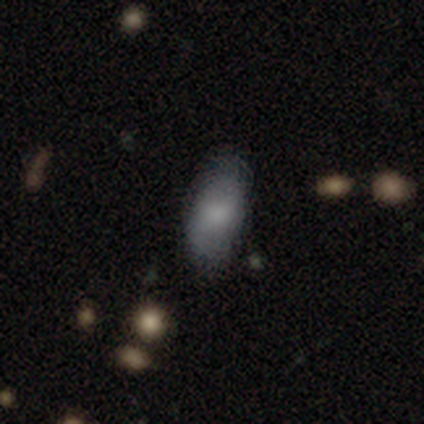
This appears to be a smooth galaxy with no disk features (60%) that is in between round and cigar-shaped (67%). Merging: none (75%).